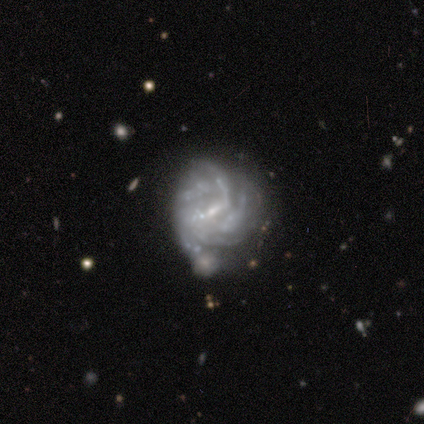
A featured or disk galaxy (100%) with a weak bar (60%), 4 (50%) tight (75%) spiral arms (80%) and a small central bulge (100%). Merging: minor disturbance (40%).